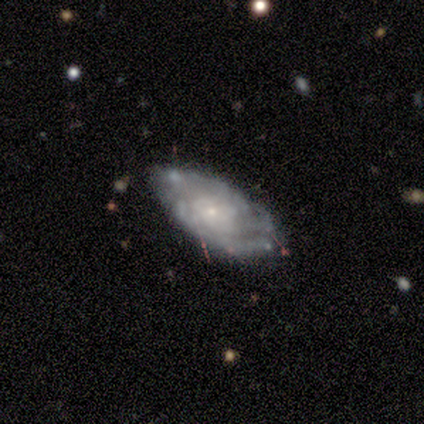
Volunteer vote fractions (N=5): Overall: featured or disk (80%). Edge-on disk: no (100%). Bar: no (75%). Spiral arms: yes (100%). Spiral arm count: 1 (25%, tied with 3, more than 4 and can't tell). Spiral winding: tight (100%). Bulge size: small (100%). Merging: none (100%).